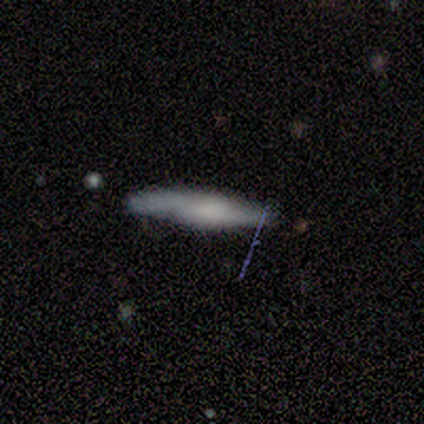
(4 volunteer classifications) Smooth or featured?
  - featured or disk: 75% *
  - smooth: 25%
  - star or artifact: 0%
Edge-on disk?
  - yes: 100% *
  - no: 0%
Edge-on bulge?
  - rounded: 67% *
  - boxy: 33%
  - none: 0%
Merging?
  - none: 100% *
  - minor disturbance: 0%
  - major disturbance: 0%
  - merger: 0%